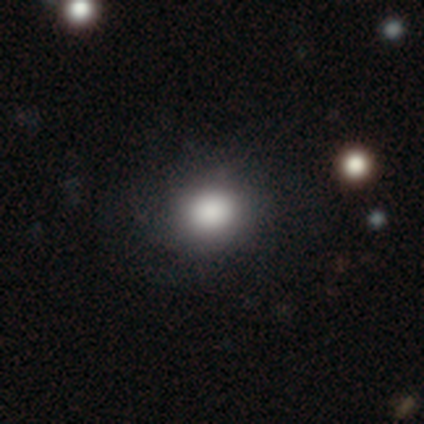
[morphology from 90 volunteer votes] Overall: smooth (78%). How rounded: round (76%). Merging: none (84%).